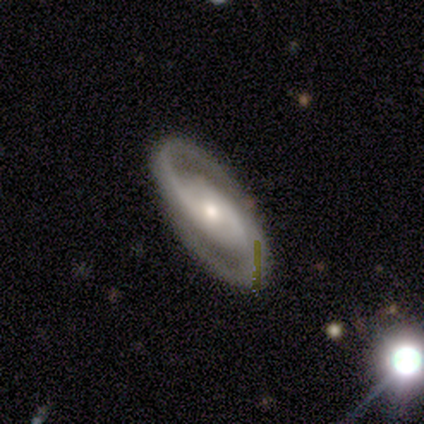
Volunteers were most divided on "smooth or featured": featured or disk: 60%, star or artifact: 40%, smooth: 0%. More confident: edge-on disk — no (100%); spiral arms — yes (100%); spiral winding — tight (100%); spiral arm count — 2 (100%); merging — none (100%); bar — no (67%); bulge size — small (67%).